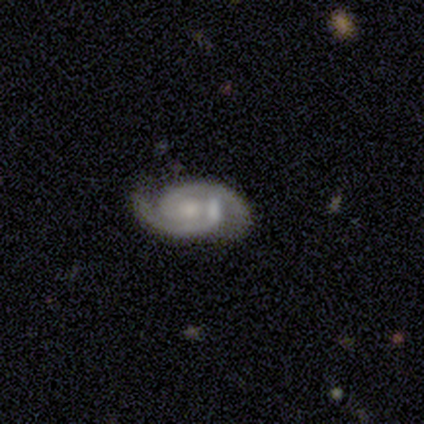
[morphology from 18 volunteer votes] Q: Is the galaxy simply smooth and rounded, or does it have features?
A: featured or disk — 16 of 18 (89%).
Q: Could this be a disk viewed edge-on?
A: no — 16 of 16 (100%).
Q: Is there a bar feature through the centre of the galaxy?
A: no — 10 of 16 (62%).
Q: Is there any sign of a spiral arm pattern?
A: yes — 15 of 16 (94%).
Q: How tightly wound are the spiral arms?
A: tight — 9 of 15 (60%).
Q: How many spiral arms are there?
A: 2 — 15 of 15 (100%).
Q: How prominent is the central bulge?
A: small — 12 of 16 (75%).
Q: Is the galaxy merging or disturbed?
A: none — 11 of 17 (65%).